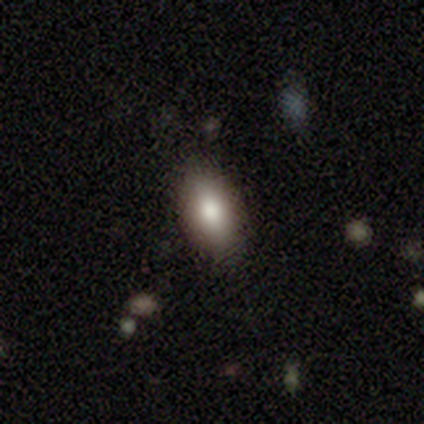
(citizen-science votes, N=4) smooth 100%, featured or disk 0%, star or artifact 0%. Down the decision tree: how rounded — in between (100%); merging — none (100%).